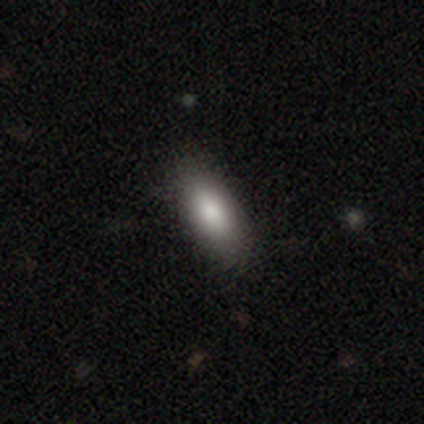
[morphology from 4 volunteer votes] Smooth or featured?
  - smooth: 100% *
  - featured or disk: 0%
  - star or artifact: 0%
How rounded?
  - in between: 100% *
  - round: 0%
  - cigar-shaped: 0%
Merging?
  - none: 100% *
  - minor disturbance: 0%
  - major disturbance: 0%
  - merger: 0%